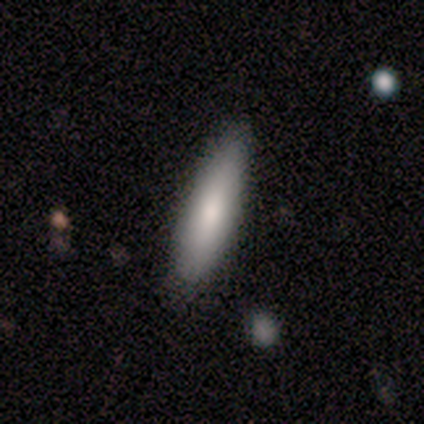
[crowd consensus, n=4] Smooth or featured? smooth (100%)
How rounded? in between (75%)
Merging? none (100%)